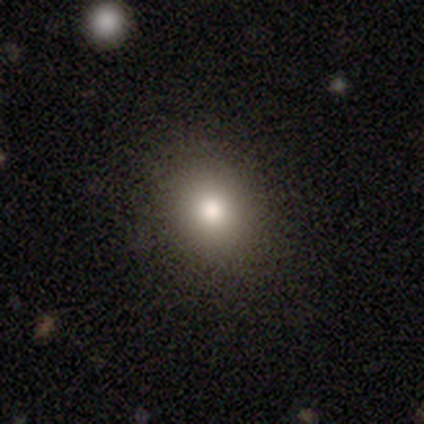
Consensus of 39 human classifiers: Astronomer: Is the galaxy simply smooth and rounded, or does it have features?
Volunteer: smooth — 79%.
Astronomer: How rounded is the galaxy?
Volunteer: in between — 52% (runner-up: round, 48%).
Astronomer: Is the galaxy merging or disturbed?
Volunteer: none — 92%.